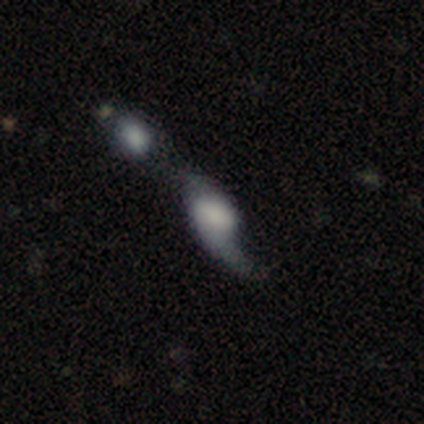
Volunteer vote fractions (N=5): featured or disk 60%, smooth 40%, star or artifact 0%. Down the decision tree: edge-on disk — no (100%); bar — no (67%); spiral arms — yes (67%); spiral arm count — 1 (50%, tied with 2); spiral winding — medium (50%, tied with loose); bulge size — none (67%); merging — merger (60%).